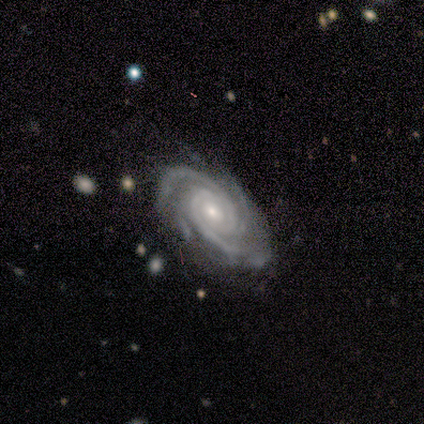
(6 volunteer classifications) Overall: featured or disk (100%). Edge-on disk: no (100%). Bar: no (50%; strong 33%). Spiral arms: yes (100%). Spiral arm count: 4 (33%, tied with more than 4). Spiral winding: tight (67%; medium 33%). Bulge size: small (67%; moderate 33%). Merging: none (67%; major disturbance 33%).